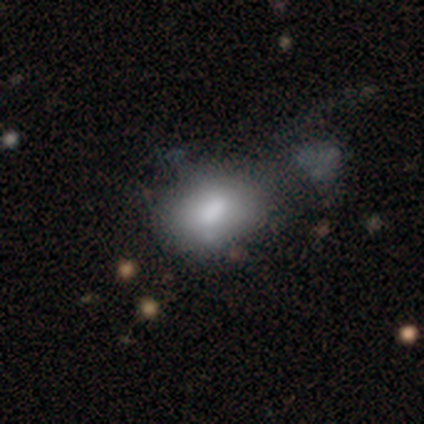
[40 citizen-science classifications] Morphology: type=smooth (68%); roundness=in between (74%); merging=none (26%).